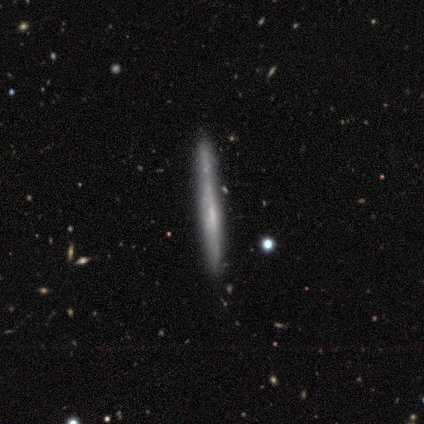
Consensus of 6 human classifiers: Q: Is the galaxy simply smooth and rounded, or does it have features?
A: featured or disk — 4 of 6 (67%).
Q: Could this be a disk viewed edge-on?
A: yes — 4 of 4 (100%).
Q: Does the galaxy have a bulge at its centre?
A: none — 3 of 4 (75%).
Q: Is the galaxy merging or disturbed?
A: none — 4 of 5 (80%).